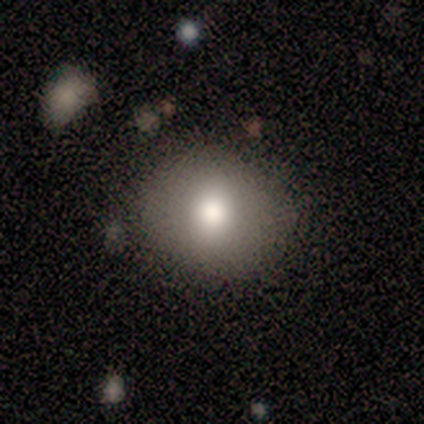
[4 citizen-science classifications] Smooth or featured?
  - smooth: 75% *
  - featured or disk: 25%
  - star or artifact: 0%
How rounded?
  - round: 100% *
  - in between: 0%
  - cigar-shaped: 0%
Merging?
  - none: 100% *
  - minor disturbance: 0%
  - major disturbance: 0%
  - merger: 0%